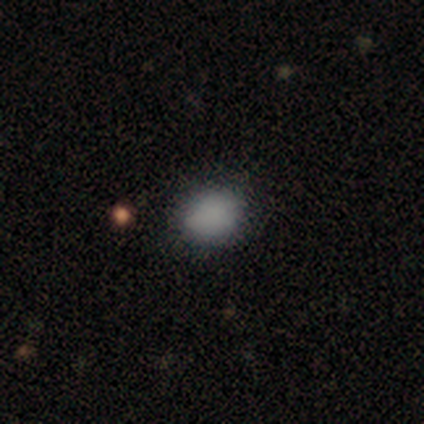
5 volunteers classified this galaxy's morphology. Volunteers were most divided on "how rounded": in between: 75%, round: 25%, cigar-shaped: 0%. More confident: merging — none (100%); smooth or featured — smooth (80%).